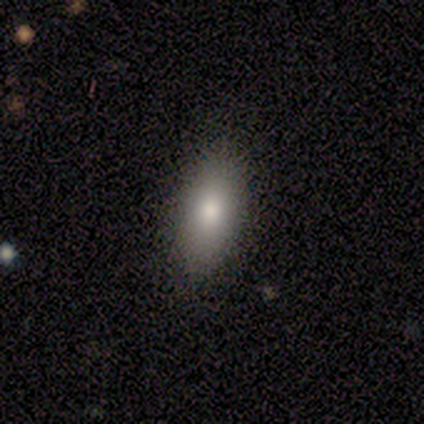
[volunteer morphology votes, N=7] smooth 86%, featured or disk 14%, star or artifact 0%. Down the decision tree: how rounded — in between (83%); merging — none (86%).